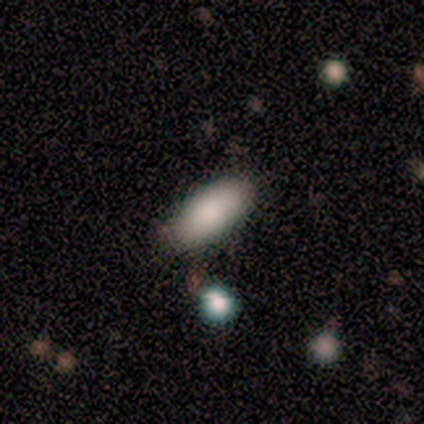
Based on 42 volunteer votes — Smooth or featured? 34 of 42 (81%) said smooth. How rounded? 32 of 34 (94%) said in between. Merging? 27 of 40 (68%) said none.